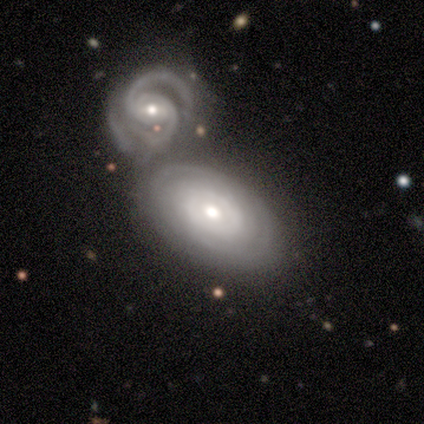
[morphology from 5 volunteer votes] This appears to be a featured or disk galaxy (100%) with a strong bar (50%), 2 (75%) tight (75%) spiral arms (100%) and a moderate central bulge (50%, tied with small). Merging: merger (80%).